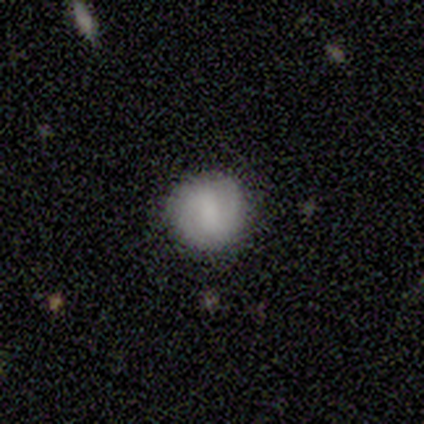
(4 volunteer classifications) A featured or disk galaxy (75%) with a strong bar (33%, tied with weak and no), 2 (100%) tight (33%, tied with medium and loose) spiral arms (100%) and a moderate central bulge (33%, tied with small and none). Merging: none (75%).